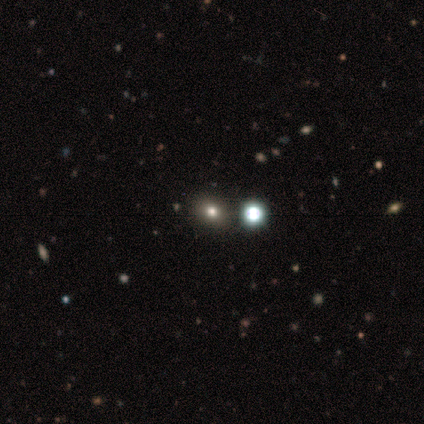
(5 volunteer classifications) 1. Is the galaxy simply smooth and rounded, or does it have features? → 60% star or artifact, 40% smooth, 0% featured or disk.